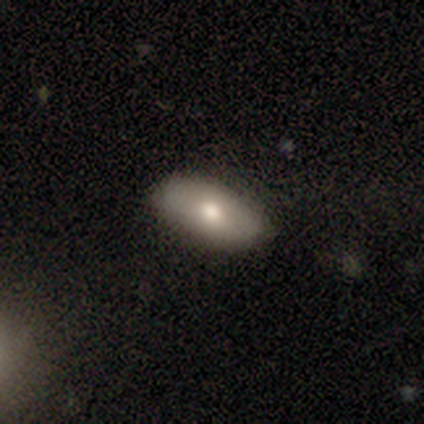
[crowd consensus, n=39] Overall: smooth (74%). How rounded: in between (97%). Merging: none (68%).